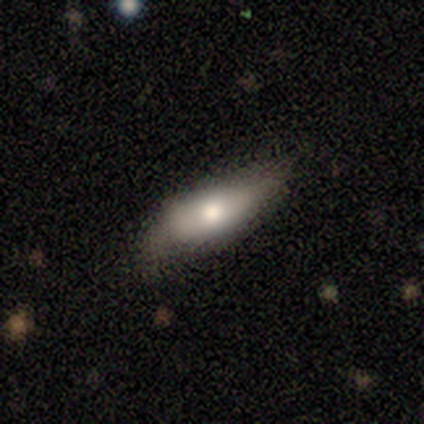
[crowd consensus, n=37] Smooth or featured? 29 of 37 (78%) said smooth. How rounded? 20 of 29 (69%) said in between. Merging? 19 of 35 (54%) said none.